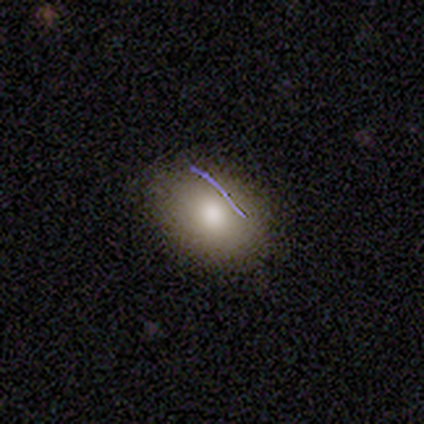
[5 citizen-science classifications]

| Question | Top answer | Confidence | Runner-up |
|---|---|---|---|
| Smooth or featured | smooth | 100% | — |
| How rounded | in between | 80% | round (20%) |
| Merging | none | 100% | — |